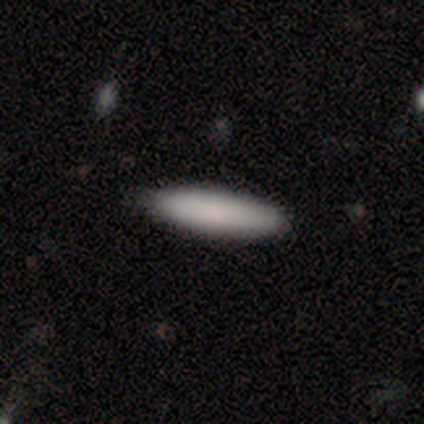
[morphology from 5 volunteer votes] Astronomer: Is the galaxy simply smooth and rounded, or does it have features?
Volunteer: smooth — 100%.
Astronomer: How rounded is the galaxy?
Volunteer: cigar-shaped — 80%.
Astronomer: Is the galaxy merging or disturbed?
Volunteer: none — 100%.